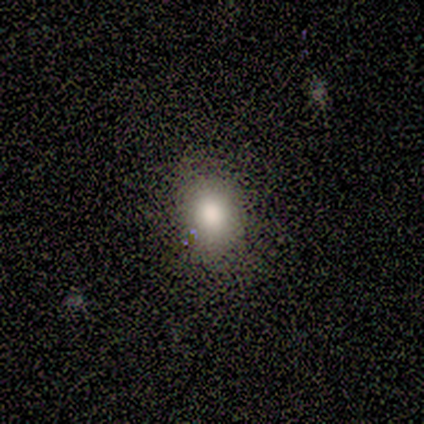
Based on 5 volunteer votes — Smooth or featured: smooth — 100%
How rounded: in between — 80% (round — 20%)
Merging: none — 100%